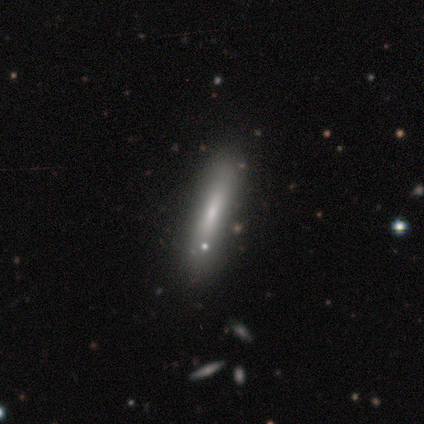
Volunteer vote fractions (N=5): smooth_or_featured: smooth (p=1.00)
how_rounded: cigar-shaped (p=1.00)
merging: none (p=1.00)